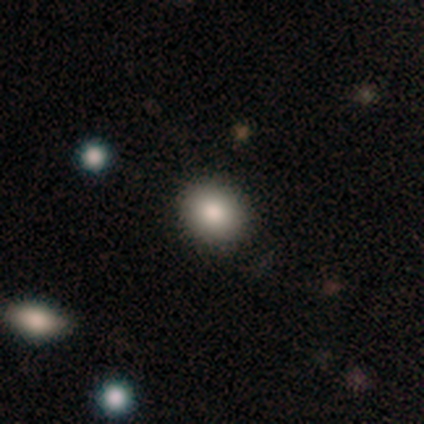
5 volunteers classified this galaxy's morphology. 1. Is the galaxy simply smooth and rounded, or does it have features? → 100% smooth, 0% featured or disk, 0% star or artifact.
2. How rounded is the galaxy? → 100% round, 0% in between, 0% cigar-shaped.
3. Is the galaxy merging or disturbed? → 80% none, 20% minor disturbance, 0% major disturbance, 0% merger.